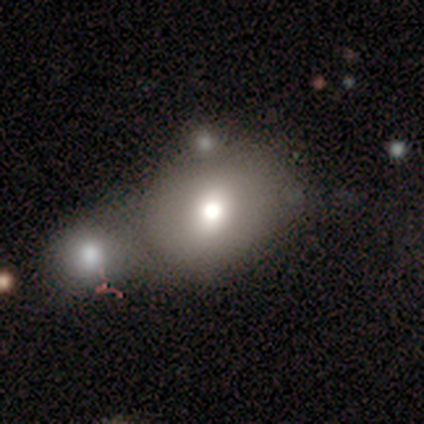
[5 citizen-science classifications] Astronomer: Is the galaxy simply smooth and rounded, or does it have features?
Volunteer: smooth — 80%.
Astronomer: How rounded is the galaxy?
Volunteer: in between — 75%.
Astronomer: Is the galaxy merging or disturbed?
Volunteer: none — 40%, tied with merger at 40%.